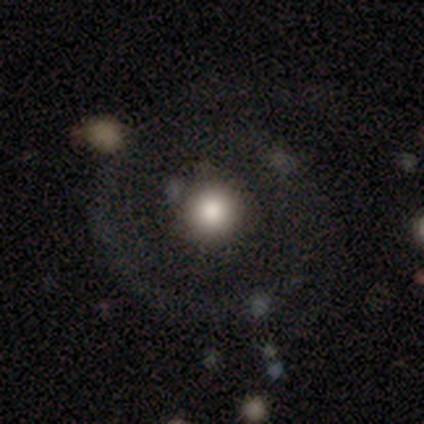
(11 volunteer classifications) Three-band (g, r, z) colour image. It shows a smooth galaxy with no disk features (55%) that is round (100%). Merging: none (64%).